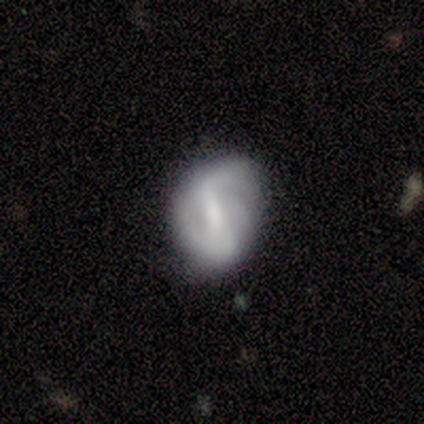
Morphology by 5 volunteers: This appears to be a featured or disk galaxy (80%) with a weak bar (100%), 1 (33%, tied with 2 and 3) tight (33%, tied with medium and loose) spiral arms (75%) and a small central bulge (75%). Merging: minor disturbance (50%).